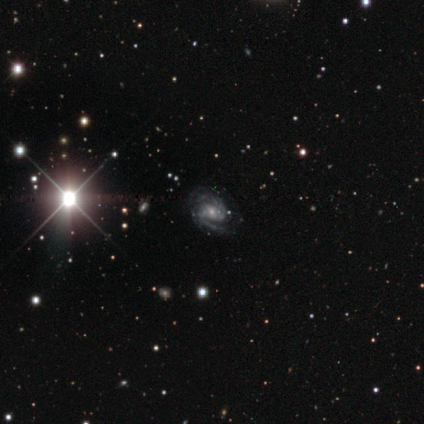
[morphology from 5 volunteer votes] This is clearly a featured or disk galaxy (100%). It is clearly not viewed edge-on (100%). Bar: likely weak (60%). Spiral arm pattern: clearly yes (100%). Spiral arm count: clearly 2 (100%). Spiral winding: clearly medium (80%). Central bulge: likely moderate (60%). Merging: clearly none (100%).